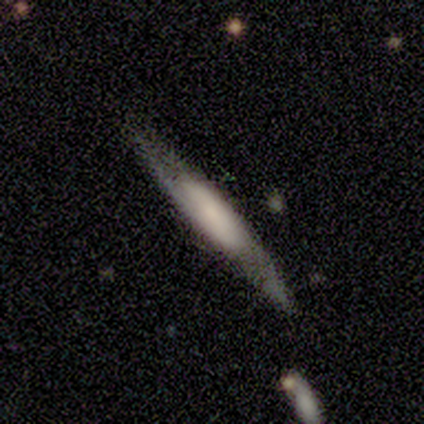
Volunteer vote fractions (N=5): Smooth or featured? 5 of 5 (100%) said featured or disk. Edge-on disk? 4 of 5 (80%) said yes. Edge-on bulge? 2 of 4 (50%) said rounded. Merging? 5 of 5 (100%) said none.